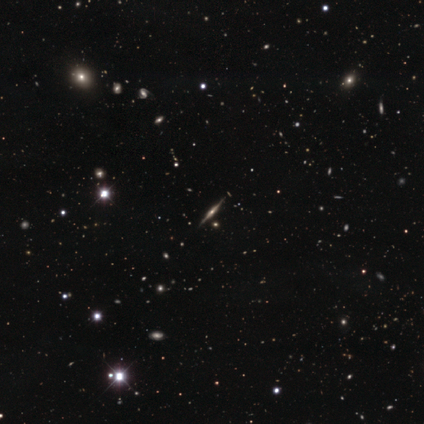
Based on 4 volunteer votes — featured or disk 75%, star or artifact 25%, smooth 0%. Down the decision tree: edge-on disk — yes (100%); edge-on bulge — rounded (67%); merging — none (67%).